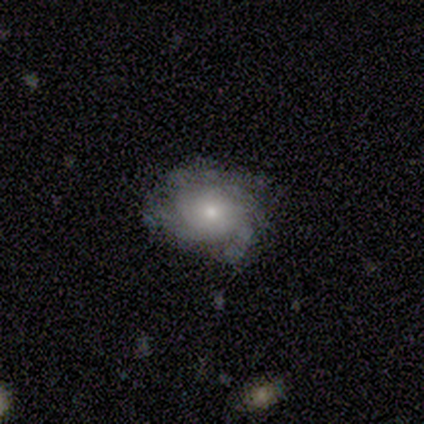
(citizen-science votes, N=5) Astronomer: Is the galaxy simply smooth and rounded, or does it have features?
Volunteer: featured or disk — 80%.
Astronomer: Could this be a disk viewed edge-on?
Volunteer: no — 100%.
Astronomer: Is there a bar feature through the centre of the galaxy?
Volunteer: no — 100%.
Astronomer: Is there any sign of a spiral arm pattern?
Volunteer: yes — 100%.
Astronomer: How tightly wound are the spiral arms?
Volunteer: tight — 75%.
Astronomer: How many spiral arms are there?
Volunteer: can't tell — 75%.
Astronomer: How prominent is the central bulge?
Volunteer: small — 75%.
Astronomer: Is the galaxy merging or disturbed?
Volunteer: none — 80%.